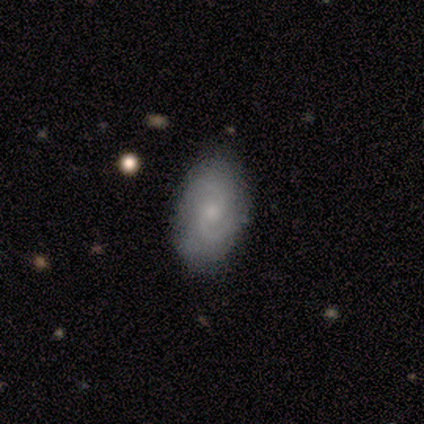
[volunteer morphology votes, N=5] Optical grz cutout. It shows a featured or disk galaxy (60%) with a weak bar (67%), 2 (100%) medium (50%, tied with loose) spiral arms (67%) and a small central bulge (67%). Merging: none (40%, tied with minor disturbance).